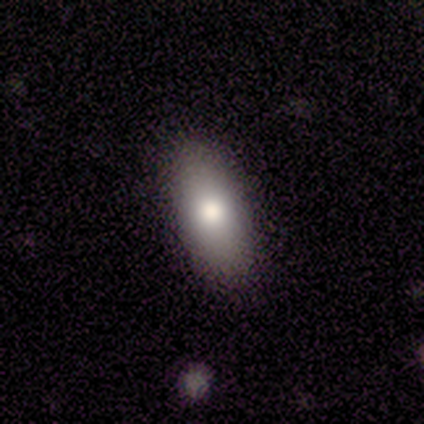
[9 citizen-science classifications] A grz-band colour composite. It shows a smooth galaxy with no disk features (89%) that is in between round and cigar-shaped (100%). Merging: none (88%).